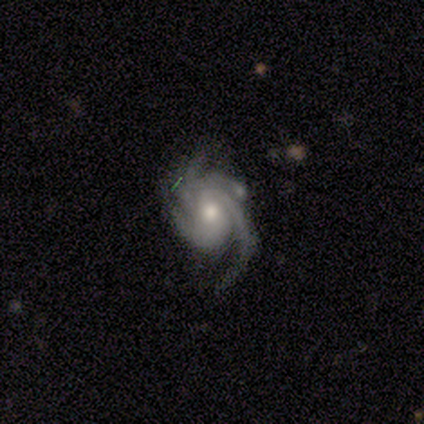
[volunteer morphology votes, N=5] Smooth or featured?
  - featured or disk: 100% *
  - smooth: 0%
  - star or artifact: 0%
Edge-on disk?
  - no: 100% *
  - yes: 0%
Bar?
  - no: 60% *
  - weak: 40%
  - strong: 0%
Spiral arms?
  - yes: 100% *
  - no: 0%
Spiral winding?
  - tight: 60% *
  - medium: 40%
  - loose: 0%
Spiral arm count?
  - 4: 80% *
  - 3: 20%
  - 1: 0%
  - 2: 0%
  - more than 4: 0%
  - can't tell: 0%
Bulge size?
  - moderate: 80% *
  - small: 20%
  - dominant: 0%
  - large: 0%
  - none: 0%
Merging?
  - none: 80% *
  - minor disturbance: 20%
  - major disturbance: 0%
  - merger: 0%